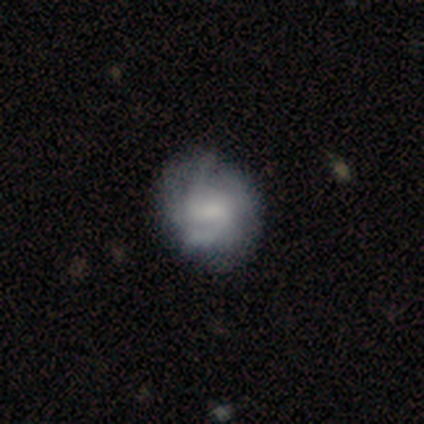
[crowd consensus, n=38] Smooth or featured: smooth — 55% (featured or disk — 37%)
How rounded: round — 76% (in between — 24%)
Merging: none — 66% (minor disturbance — 23%)